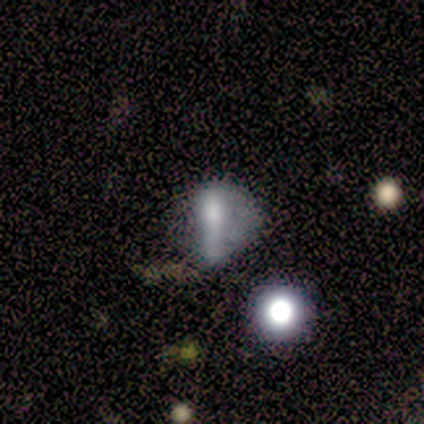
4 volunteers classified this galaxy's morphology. This appears to be a smooth galaxy with no disk features (75%) that is cigar-shaped (67%). Merging: none (67%).